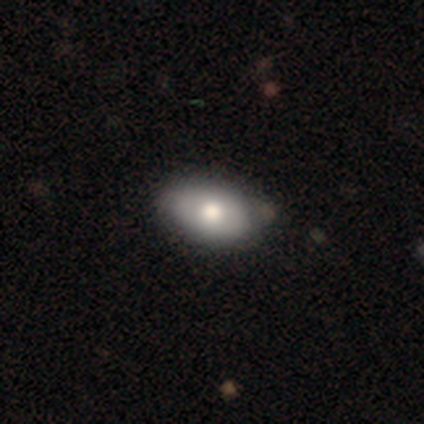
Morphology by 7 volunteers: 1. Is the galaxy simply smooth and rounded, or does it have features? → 71% smooth, 29% featured or disk, 0% star or artifact.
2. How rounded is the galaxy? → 100% in between, 0% round, 0% cigar-shaped.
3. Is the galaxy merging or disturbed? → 86% none, 14% major disturbance, 0% minor disturbance, 0% merger.